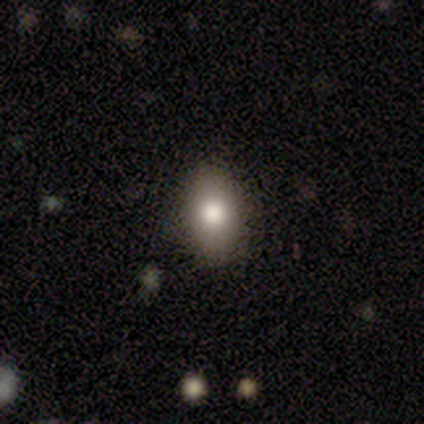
This appears to be a smooth galaxy with no disk features (100%) that is in between round and cigar-shaped (75%). Merging: none (100%).